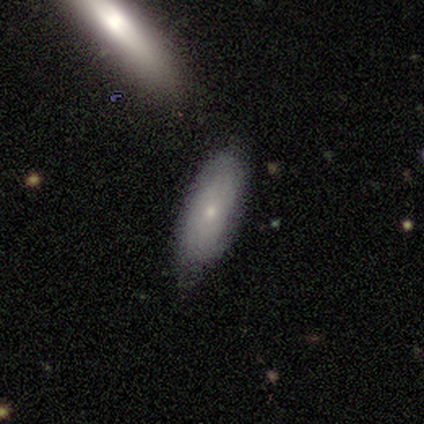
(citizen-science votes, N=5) Smooth or featured? smooth (80%)
How rounded? in between (100%)
Merging? minor disturbance (80%)